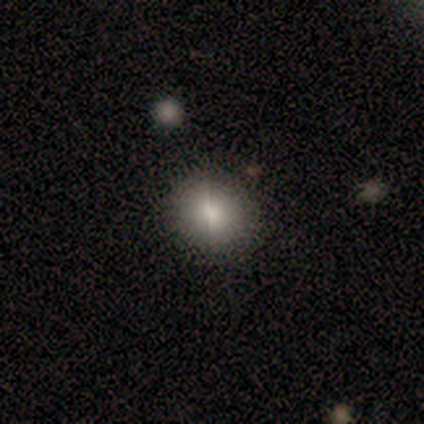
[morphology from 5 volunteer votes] Smooth or featured?
  - smooth: 40% * (tied)
  - featured or disk: 40% * (tied)
  - star or artifact: 20%
How rounded?
  - round: 100% *
  - in between: 0%
  - cigar-shaped: 0%
Merging?
  - none: 100% *
  - minor disturbance: 0%
  - major disturbance: 0%
  - merger: 0%